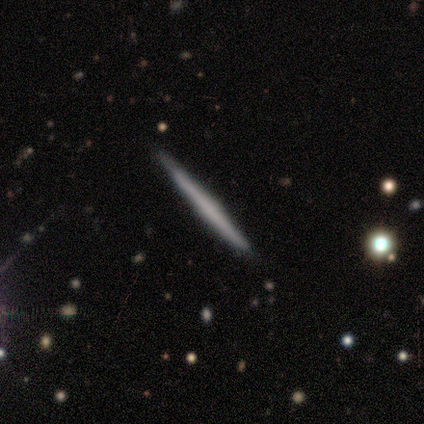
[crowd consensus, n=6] smooth-or-featured: featured or disk: 67% | smooth: 33% | star or artifact: 0%
  disk-edge-on: yes: 100% | no: 0%
    edge-on-bulge: none: 100% | boxy: 0% | rounded: 0%
  merging: none: 100% | minor disturbance: 0% | major disturbance: 0% | merger: 0%